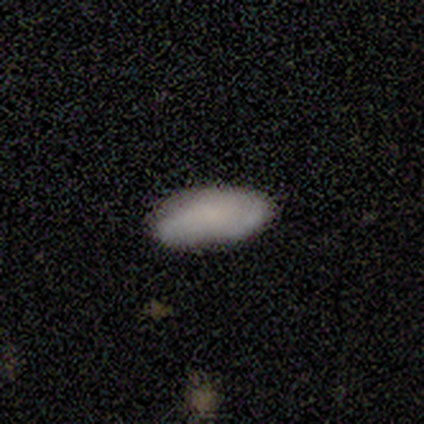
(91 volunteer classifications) Volunteers were most divided on "smooth or featured": smooth: 74%, featured or disk: 18%, star or artifact: 9%. More confident: how rounded — in between (88%); merging — none (84%).